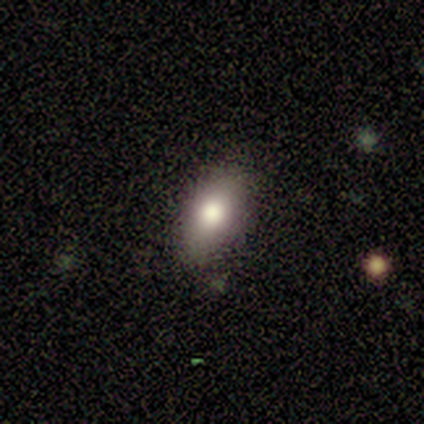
Smooth or featured? 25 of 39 (64%) said smooth. How rounded? 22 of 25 (88%) said in between. Merging? 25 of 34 (74%) said none.